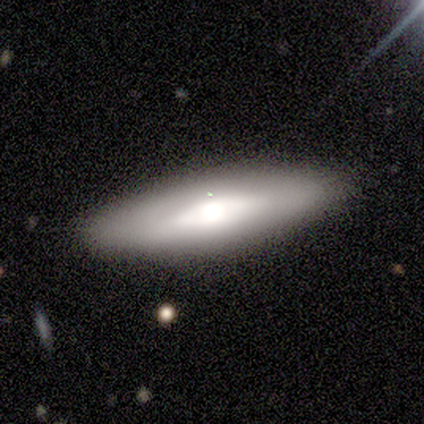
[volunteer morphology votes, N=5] This appears to be a smooth galaxy with no disk features (60%) that is in between round and cigar-shaped (67%). Merging: none (80%).